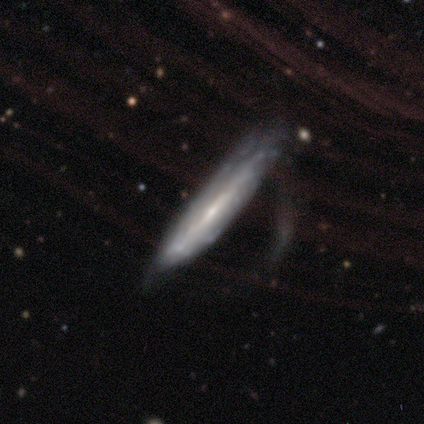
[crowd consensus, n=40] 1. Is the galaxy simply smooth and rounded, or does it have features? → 75% featured or disk, 20% smooth, 5% star or artifact.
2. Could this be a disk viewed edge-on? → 53% yes, 47% no.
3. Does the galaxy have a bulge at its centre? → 81% none, 12% rounded, 6% boxy.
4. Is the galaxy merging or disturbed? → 45% major disturbance, 26% none, 26% minor disturbance, 3% merger.